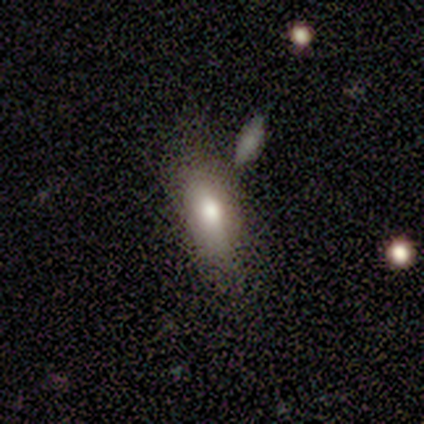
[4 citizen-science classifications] A smooth galaxy with no disk features (75%) that is in between round and cigar-shaped (100%). Merging: none (50%).